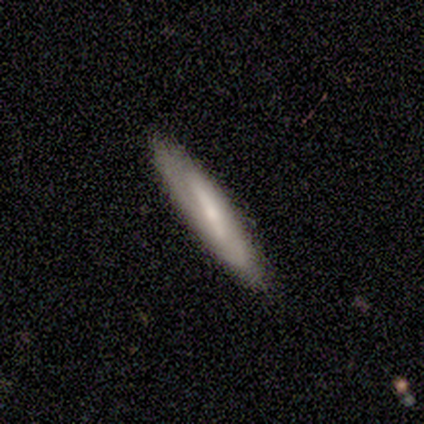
Smooth or featured?
  - smooth: 80% *
  - featured or disk: 20%
  - star or artifact: 0%
How rounded?
  - cigar-shaped: 75% *
  - in between: 25%
  - round: 0%
Merging?
  - none: 100% *
  - minor disturbance: 0%
  - major disturbance: 0%
  - merger: 0%